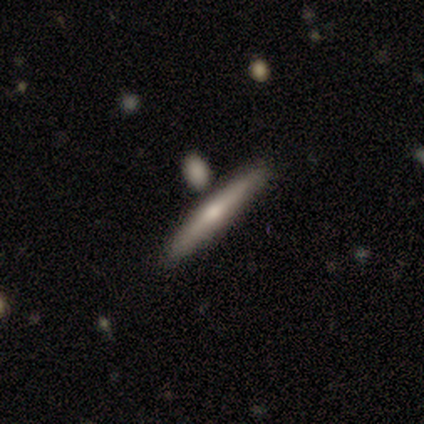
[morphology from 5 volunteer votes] Q: Smooth or featured?
A: smooth (60%); runner-up: featured or disk (40%)
Q: How rounded?
A: cigar-shaped (100%)
Q: Merging?
A: none (60%); runner-up: minor disturbance (20%)